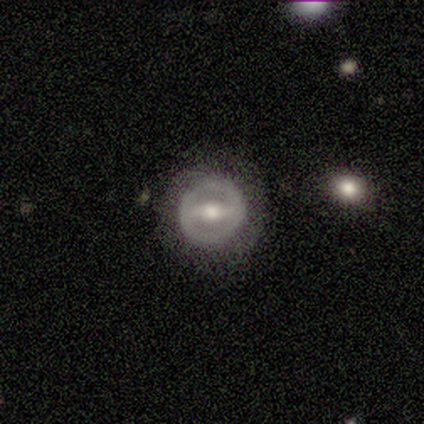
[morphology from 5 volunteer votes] Smooth or featured? 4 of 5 (80%) said featured or disk. Edge-on disk? 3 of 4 (75%) said no. Bar? 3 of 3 (100%) said strong. Spiral arms? 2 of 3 (67%) said yes. Spiral winding? 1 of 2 (50%, tied with loose) said tight. Spiral arm count? 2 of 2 (100%) said 2. Bulge size? 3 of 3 (100%) said moderate. Merging? 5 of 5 (100%) said none.